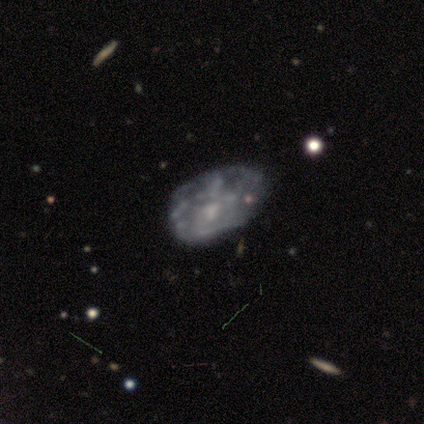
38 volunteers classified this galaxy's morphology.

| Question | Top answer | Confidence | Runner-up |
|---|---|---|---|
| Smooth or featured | featured or disk | 76% | smooth (13%) |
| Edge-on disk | no | 100% | — |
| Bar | no | 79% | weak (17%) |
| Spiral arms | no | 76% | yes (24%) |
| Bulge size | none | 55% | small (24%) |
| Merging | none | 47% | major disturbance (26%) |